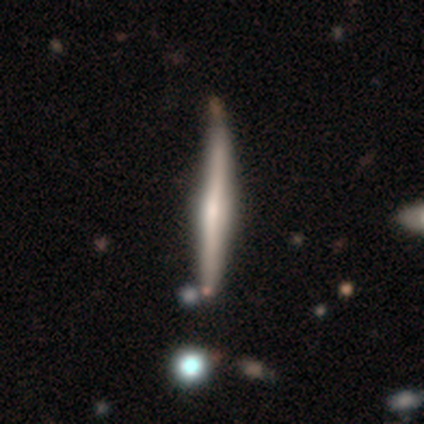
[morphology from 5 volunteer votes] A featured or disk galaxy (100%) viewed edge-on (100%) with a rounded central bulge (60%).

Vote fractions:
- Smooth or featured? featured or disk: 100% / smooth: 0% / star or artifact: 0%
- Edge-on disk? yes: 100% / no: 0%
- Edge-on bulge? rounded: 60% / boxy: 20% / none: 20%
- Merging? none: 100% / minor disturbance: 0% / major disturbance: 0% / merger: 0%